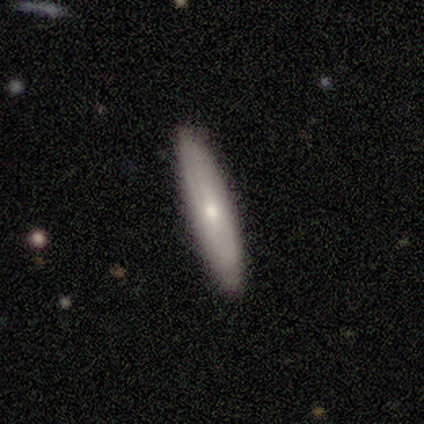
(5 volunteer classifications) smooth_or_featured: smooth (p=0.60) [alt: featured or disk p=0.40]
how_rounded: cigar-shaped (p=0.67) [alt: in between p=0.33]
merging: none (p=1.00)